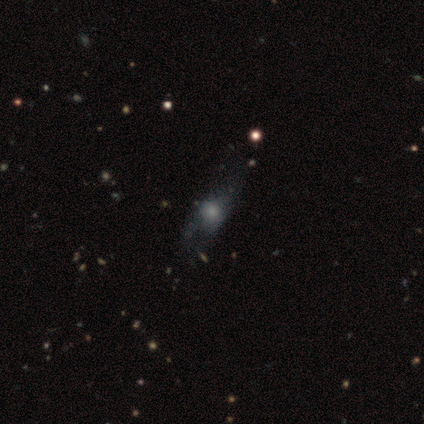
smooth_or_featured: smooth (p=0.60) [alt: featured or disk p=0.20]
how_rounded: round (p=0.33) [tied with: in between p=0.33, cigar-shaped p=0.33]
merging: minor disturbance (p=1.00)